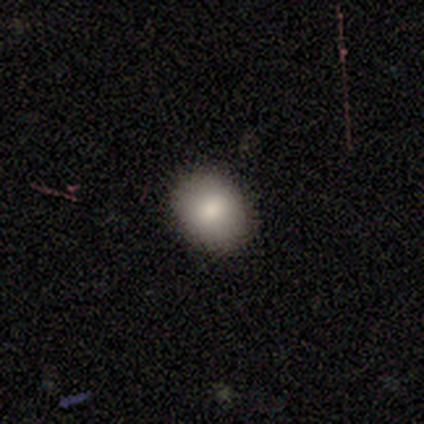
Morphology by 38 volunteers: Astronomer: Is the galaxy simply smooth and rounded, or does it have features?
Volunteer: smooth — 84%.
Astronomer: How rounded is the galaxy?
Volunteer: round — 59% (runner-up: in between, 41%).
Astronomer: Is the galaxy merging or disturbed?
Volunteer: none — 89%.